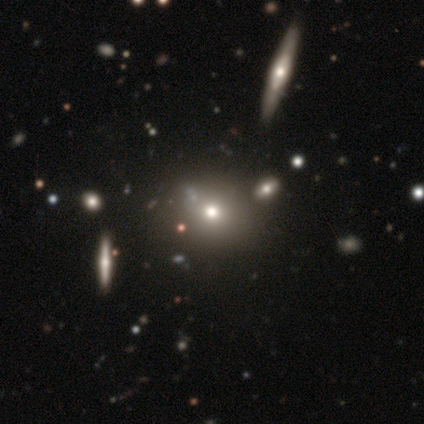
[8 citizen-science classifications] smooth_or_featured: smooth (p=0.50) [alt: featured or disk p=0.38]
how_rounded: round (p=1.00)
merging: none (p=0.86) [alt: merger p=0.14]